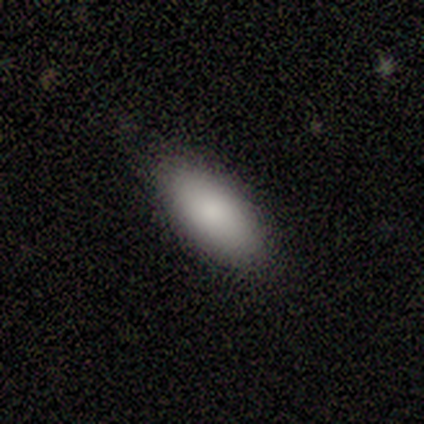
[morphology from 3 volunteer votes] smooth_or_featured: smooth (p=1.00)
how_rounded: in between (p=1.00)
merging: none (p=1.00)